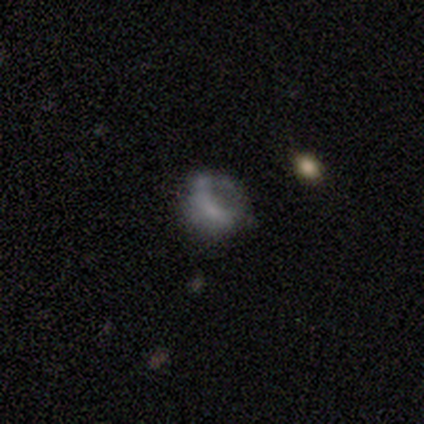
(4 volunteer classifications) This is possibly a smooth galaxy (50%, tied with featured or disk). How rounded: possibly round (50%, tied with in between). Merging: possibly none (50%).